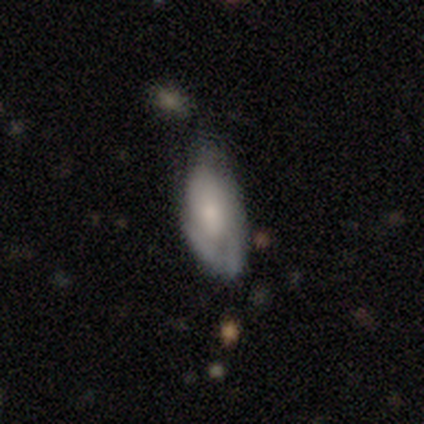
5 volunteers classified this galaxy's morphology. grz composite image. It shows a smooth galaxy with no disk features (60%) that is in between round and cigar-shaped (67%). Merging: minor disturbance (50%).